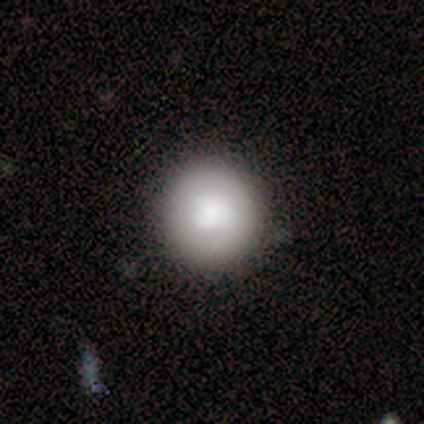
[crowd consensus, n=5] This appears to be a smooth galaxy with no disk features (100%) that is round (100%). Merging: none (100%).